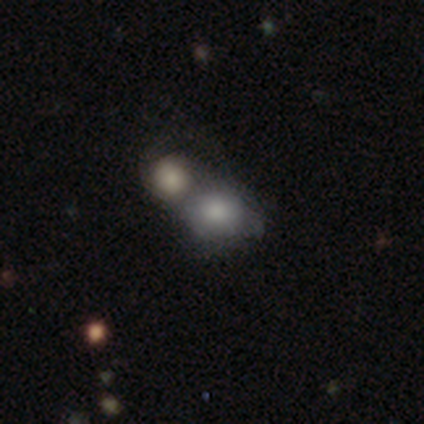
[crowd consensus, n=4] Smooth or featured?
  - smooth: 75% *
  - featured or disk: 25%
  - star or artifact: 0%
How rounded?
  - in between: 67% *
  - round: 33%
  - cigar-shaped: 0%
Merging?
  - merger: 75% *
  - minor disturbance: 25%
  - none: 0%
  - major disturbance: 0%